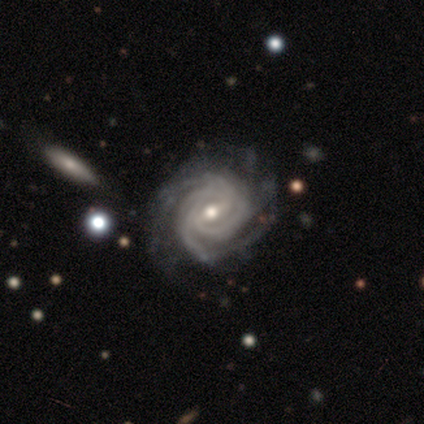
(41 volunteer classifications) smooth-or-featured: featured or disk: 98% | smooth: 2% | star or artifact: 0%
  disk-edge-on: no: 98% | yes: 2%
    bar: weak: 49% | strong: 38% | no: 13%
    has-spiral-arms: yes: 100% | no: 0%
      spiral-winding: tight: 79% | medium: 18% | loose: 3%
      spiral-arm-count: 4: 33% | can't tell: 23% | 3: 15% | more than 4: 15% | 2: 13% | 1: 0%
    bulge-size: moderate: 67% | small: 28% | dominant: 3% | large: 3% | none: 0%
  merging: none: 54% | minor disturbance: 12% | major disturbance: 12% | merger: 0%